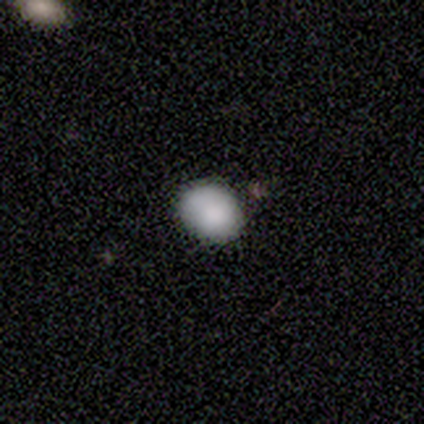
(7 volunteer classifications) smooth-or-featured: smooth: 71% | featured or disk: 29% | star or artifact: 0%
  how-rounded: round: 60% | in between: 40% | cigar-shaped: 0%
  merging: none: 57% | minor disturbance: 29% | major disturbance: 14% | merger: 0%